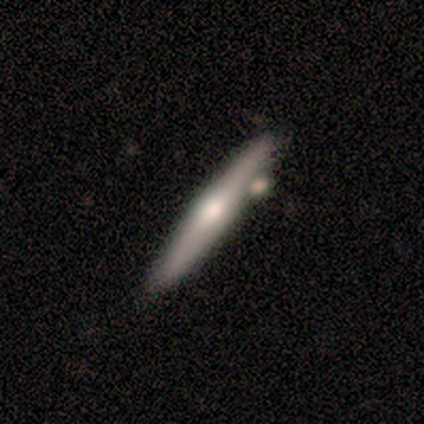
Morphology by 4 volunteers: Smooth or featured: featured or disk — 75% (smooth — 25%)
Edge-on disk: yes — 100%
Edge-on bulge: rounded — 67% (none — 33%)
Merging: none — 75% (merger — 25%)